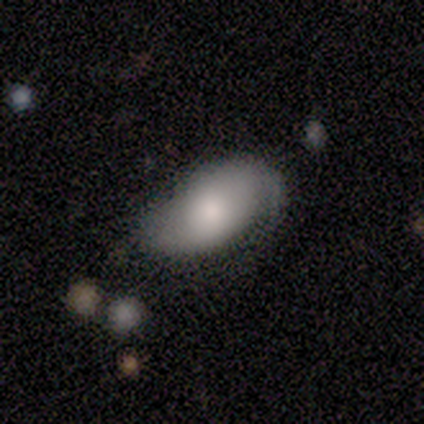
smooth-or-featured: smooth: 80% | featured or disk: 20% | star or artifact: 0%
  how-rounded: in between: 100% | round: 0% | cigar-shaped: 0%
  merging: none: 40% (tied) | minor disturbance: 40% (tied) | major disturbance: 20% | merger: 0%